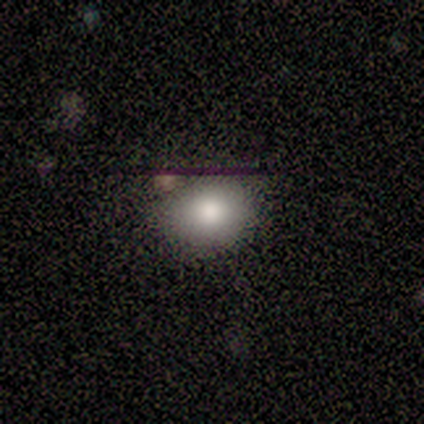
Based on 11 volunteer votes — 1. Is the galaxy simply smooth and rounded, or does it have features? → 73% smooth, 18% featured or disk, 9% star or artifact.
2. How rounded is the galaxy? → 100% round, 0% in between, 0% cigar-shaped.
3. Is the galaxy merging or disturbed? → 70% none, 30% minor disturbance, 0% major disturbance, 0% merger.